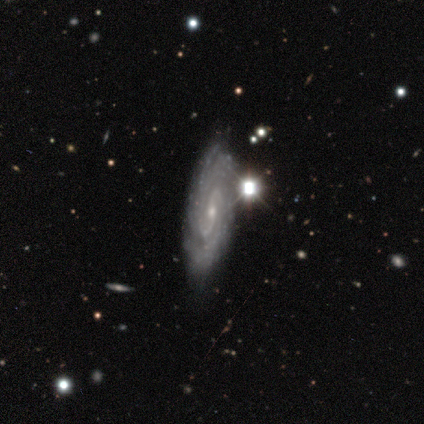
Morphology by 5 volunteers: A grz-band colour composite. It shows a featured or disk galaxy (100%) with a weak bar (40%, tied with no), 2 (50%, tied with can't tell) tight (50%) spiral arms (80%) and a small central bulge (80%). Merging: none (60%).